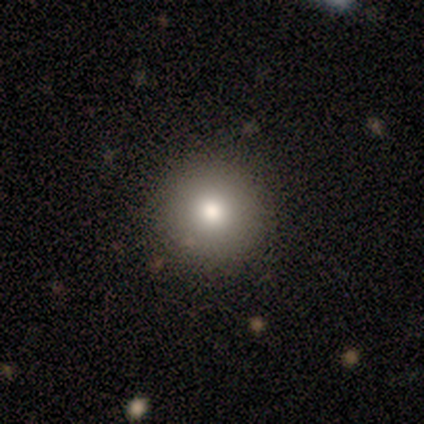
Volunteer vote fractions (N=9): smooth-or-featured: smooth: 78% | featured or disk: 11% | star or artifact: 11%
  how-rounded: round: 86% | in between: 14% | cigar-shaped: 0%
  merging: none: 75% | minor disturbance: 25% | major disturbance: 0% | merger: 0%